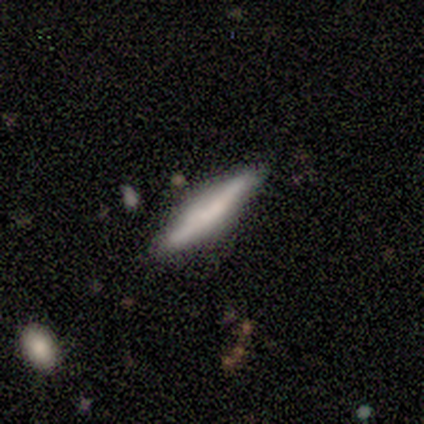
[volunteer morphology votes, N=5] A smooth galaxy with no disk features (60%) that is cigar-shaped (100%). Merging: none (100%).